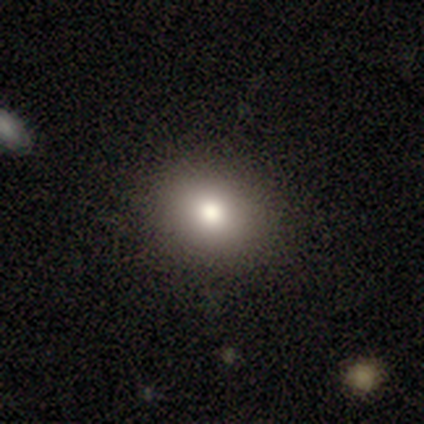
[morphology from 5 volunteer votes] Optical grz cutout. It shows a smooth galaxy with no disk features (60%) that is round (67%). Merging: minor disturbance (67%).